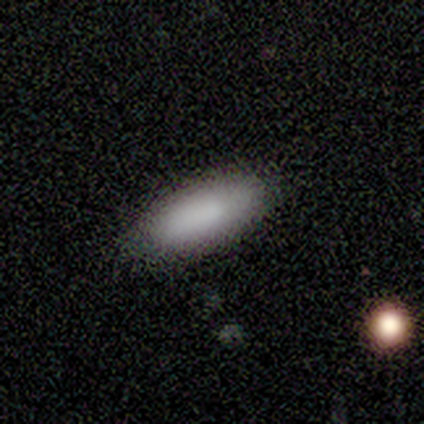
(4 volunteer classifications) smooth_or_featured: smooth (p=1.00)
how_rounded: in between (p=1.00)
merging: none (p=1.00)